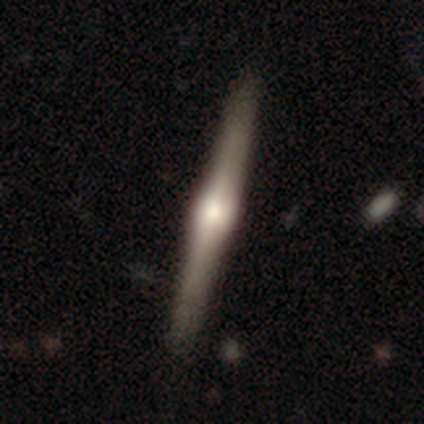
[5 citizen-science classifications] A featured or disk galaxy (80%) viewed edge-on (100%) with a rounded central bulge (50%).

Vote fractions:
- Smooth or featured? featured or disk: 80% / smooth: 20% / star or artifact: 0%
- Edge-on disk? yes: 100% / no: 0%
- Edge-on bulge? rounded: 50% / boxy: 25% / none: 25%
- Merging? none: 100% / minor disturbance: 0% / major disturbance: 0% / merger: 0%